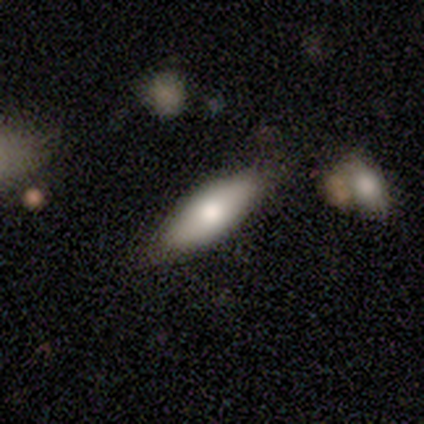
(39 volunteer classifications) smooth 69%, featured or disk 26%, star or artifact 5%. Down the decision tree: how rounded — in between (67%); merging — none (78%).